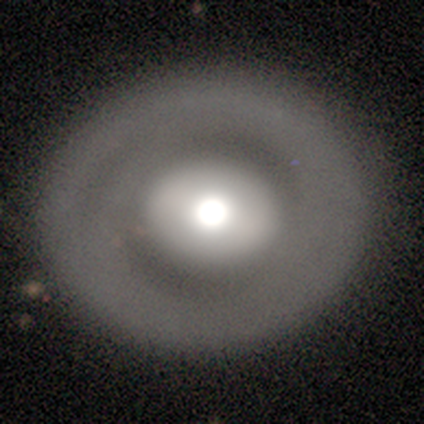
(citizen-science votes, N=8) Volunteers were most divided on "bulge size": moderate: 60%, large: 40%, dominant: 0%, small: 0%, none: 0%. More confident: edge-on disk — no (100%); bar — no (100%); merging — none (100%); spiral arms — no (80%); smooth or featured — featured or disk (62%).